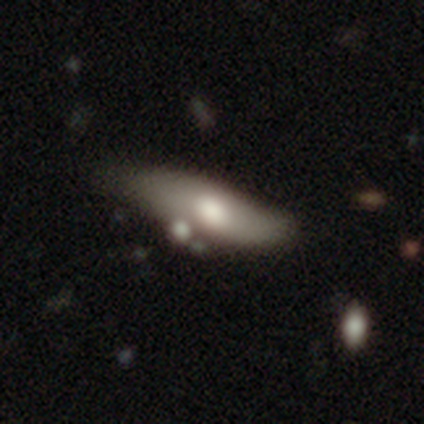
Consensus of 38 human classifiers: Q: Smooth or featured?
A: featured or disk (53%); runner-up: smooth (45%)
Q: Edge-on disk?
A: no (75%); runner-up: yes (25%)
Q: Bar?
A: no (67%); runner-up: weak (27%)
Q: Spiral arms?
A: no (60%); runner-up: yes (40%)
Q: Bulge size?
A: moderate (67%); runner-up: large (20%)
Q: Merging?
A: minor disturbance (32%); runner-up: none (27%)